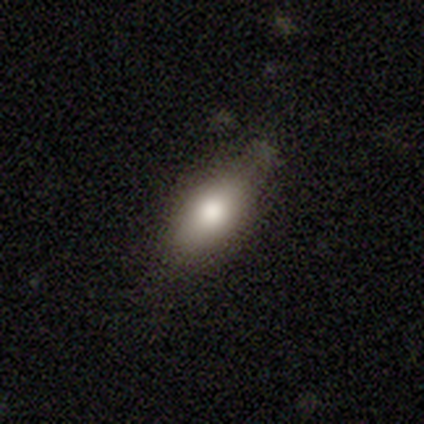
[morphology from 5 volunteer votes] smooth 80%, featured or disk 20%, star or artifact 0%. Down the decision tree: how rounded — in between (100%); merging — none (60%).